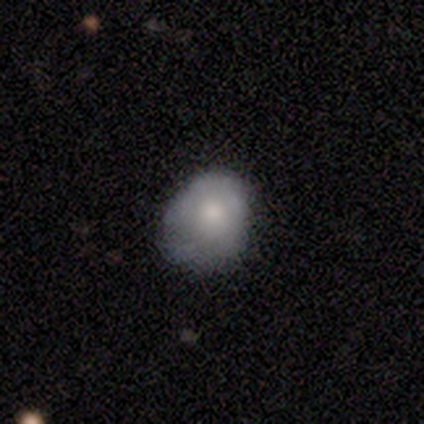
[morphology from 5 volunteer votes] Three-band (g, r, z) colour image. It shows a smooth galaxy with no disk features (80%) that is in between round and cigar-shaped (100%). Merging: minor disturbance (40%, tied with major disturbance).